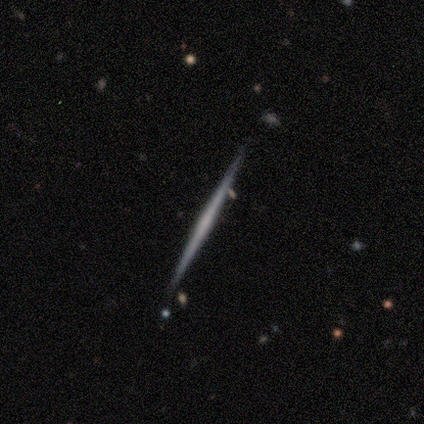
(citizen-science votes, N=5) featured or disk 60%, smooth 40%, star or artifact 0%. Down the decision tree: edge-on disk — yes (100%); edge-on bulge — none (67%); merging — none (100%).